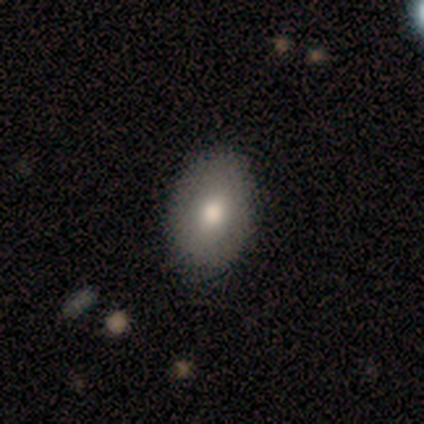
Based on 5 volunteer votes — This is clearly a smooth galaxy (80%). How rounded: clearly in between (100%). Merging: marginally none (40%, tied with minor disturbance).